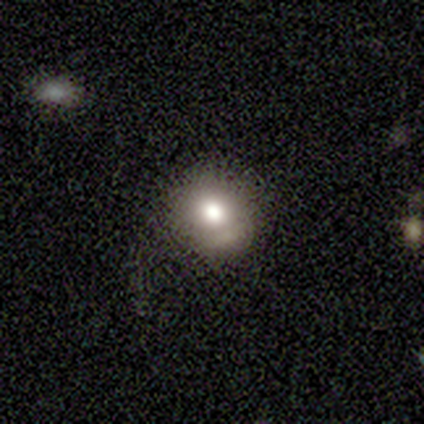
Smooth or featured? 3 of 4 (75%) said smooth. How rounded? 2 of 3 (67%) said round. Merging? 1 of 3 (33%, tied with minor disturbance and merger) said none.